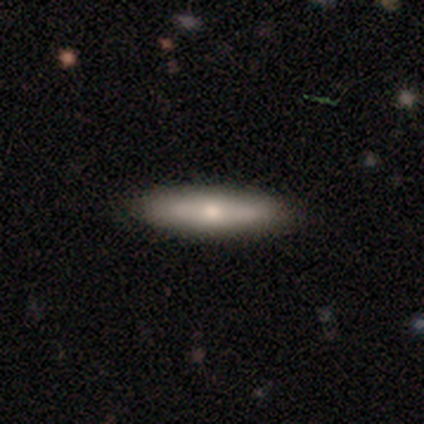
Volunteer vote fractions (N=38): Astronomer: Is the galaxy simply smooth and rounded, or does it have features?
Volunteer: smooth — 55% (runner-up: featured or disk, 39%).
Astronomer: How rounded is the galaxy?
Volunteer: cigar-shaped — 71%.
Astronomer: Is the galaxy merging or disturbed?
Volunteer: none — 86%.